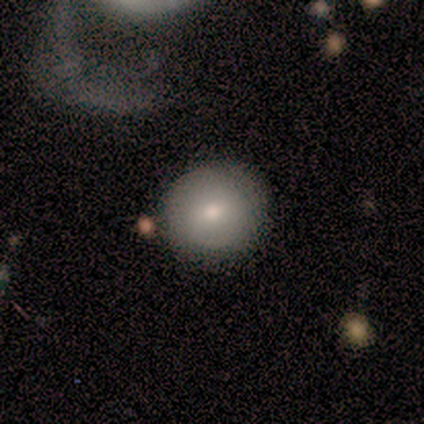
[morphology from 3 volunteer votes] smooth-or-featured: featured or disk: 100% | smooth: 0% | star or artifact: 0%
  disk-edge-on: no: 100% | yes: 0%
    bar: no: 67% | weak: 33% | strong: 0%
    has-spiral-arms: no: 100% | yes: 0%
    bulge-size: moderate: 67% | small: 33% | dominant: 0% | large: 0% | none: 0%
  merging: none: 100% | minor disturbance: 0% | major disturbance: 0% | merger: 0%